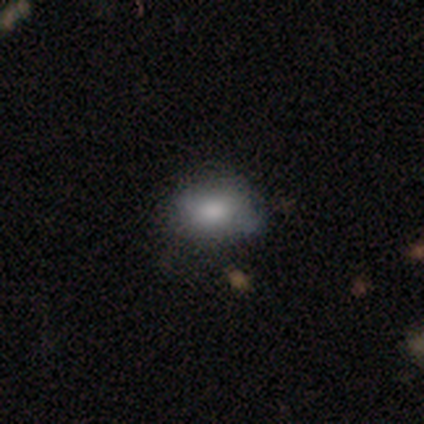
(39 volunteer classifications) A smooth galaxy with no disk features (74%) that is in between round and cigar-shaped (66%).

Vote fractions:
- Smooth or featured? smooth: 74% / featured or disk: 18% / star or artifact: 8%
- How rounded? in between: 66% / round: 31% / cigar-shaped: 3%
- Merging? none: 69% / minor disturbance: 28% / major disturbance: 3% / merger: 0%